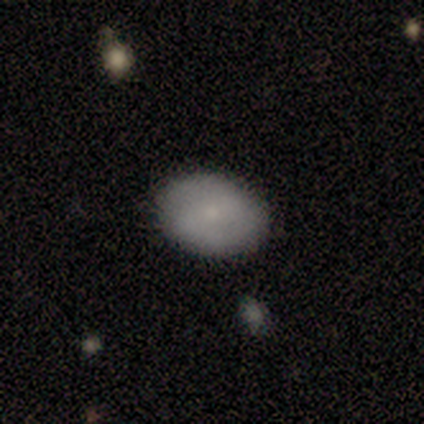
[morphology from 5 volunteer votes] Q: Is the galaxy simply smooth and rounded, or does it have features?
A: smooth — 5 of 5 (100%).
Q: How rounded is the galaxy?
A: in between — 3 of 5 (60%).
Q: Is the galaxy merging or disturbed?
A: none — 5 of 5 (100%).